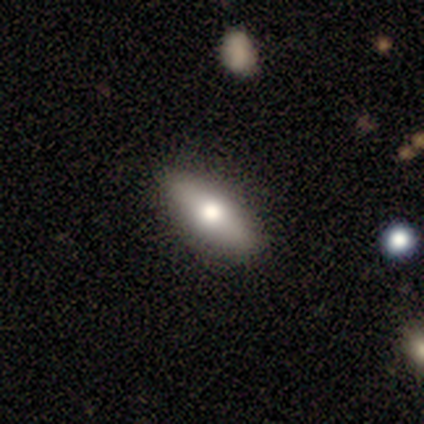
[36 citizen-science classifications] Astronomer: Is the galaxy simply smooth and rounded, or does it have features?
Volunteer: smooth — 69%.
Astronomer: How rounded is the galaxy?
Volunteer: in between — 64%.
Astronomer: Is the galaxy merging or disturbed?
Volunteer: none — 94%.